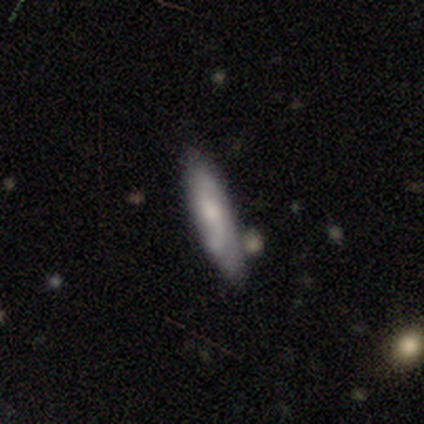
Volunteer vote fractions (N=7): smooth-or-featured: smooth: 57% | featured or disk: 43% | star or artifact: 0%
  how-rounded: cigar-shaped: 100% | round: 0% | in between: 0%
  merging: minor disturbance: 71% | none: 29% | major disturbance: 0% | merger: 0%